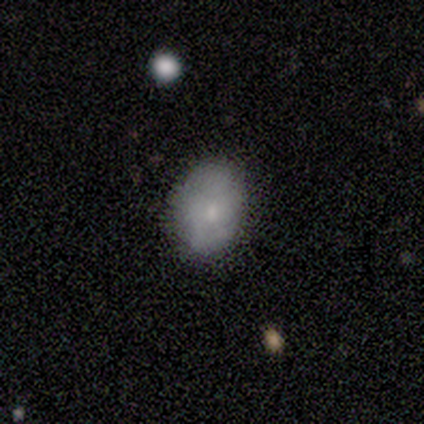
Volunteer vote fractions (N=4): Smooth or featured?
  - smooth: 100% *
  - featured or disk: 0%
  - star or artifact: 0%
How rounded?
  - in between: 75% *
  - round: 25%
  - cigar-shaped: 0%
Merging?
  - none: 100% *
  - minor disturbance: 0%
  - major disturbance: 0%
  - merger: 0%